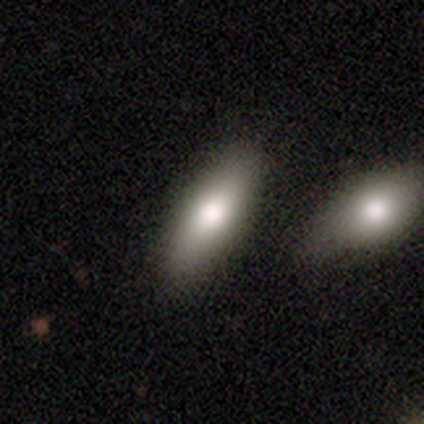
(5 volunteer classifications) This appears to be a smooth galaxy with no disk features (40%, tied with featured or disk) that is in between round and cigar-shaped (100%). Merging: none (100%).